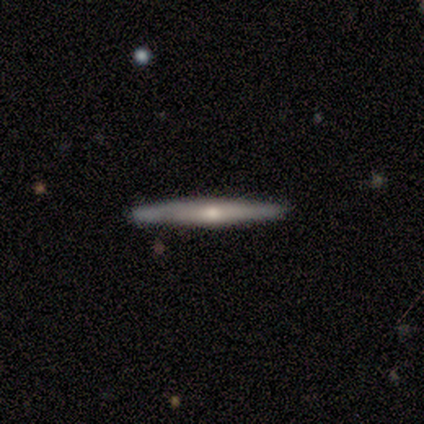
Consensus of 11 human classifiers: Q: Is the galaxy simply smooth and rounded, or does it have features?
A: featured or disk — 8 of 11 (73%).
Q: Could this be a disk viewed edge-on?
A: yes — 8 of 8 (100%).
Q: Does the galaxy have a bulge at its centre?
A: rounded — 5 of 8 (62%).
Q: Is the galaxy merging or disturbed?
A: none — 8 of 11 (73%).